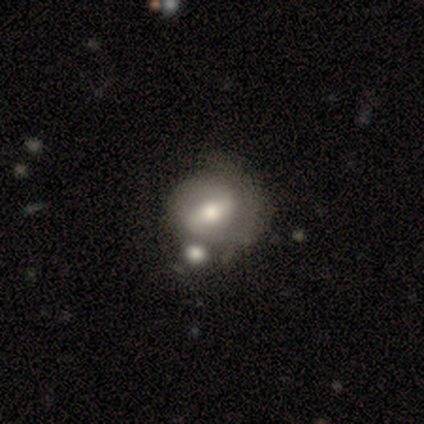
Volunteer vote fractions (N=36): Smooth or featured: featured or disk — 56% (smooth — 39%)
Edge-on disk: no — 95% (yes — 5%)
Bar: weak — 58% (strong — 42%)
Spiral arms: yes — 68% (no — 32%)
Spiral winding: tight — 54% (medium — 23%)
Spiral arm count: 2 — 46% (tied with can't tell — 46%)
Bulge size: moderate — 68% (large — 16%)
Merging: none — 29% (minor disturbance — 26%)